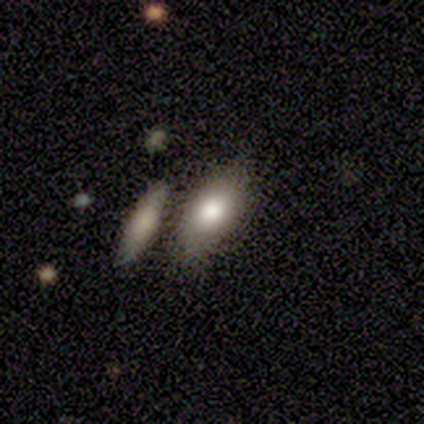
smooth-or-featured: smooth: 75% | featured or disk: 25% | star or artifact: 0%
  how-rounded: in between: 100% | round: 0% | cigar-shaped: 0%
  merging: none: 50% (tied) | merger: 50% (tied) | minor disturbance: 0% | major disturbance: 0%